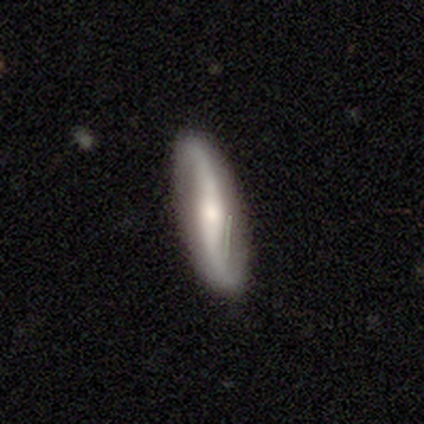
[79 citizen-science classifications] smooth_or_featured: featured or disk (p=0.77) [alt: smooth p=0.19]
disk_edge_on: no (p=0.92) [alt: yes p=0.08]
bar: no (p=0.46) [alt: strong p=0.39]
has_spiral_arms: yes (p=0.98) [alt: no p=0.02]
spiral_winding: loose (p=0.91) [alt: medium p=0.07]
spiral_arm_count: 2 (p=1.00)
bulge_size: moderate (p=0.43) [alt: small p=0.39]
merging: none (p=0.57) [alt: minor disturbance p=0.07]